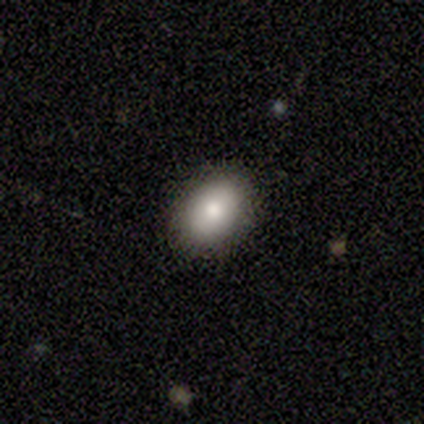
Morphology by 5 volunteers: smooth 100%, featured or disk 0%, star or artifact 0%. Down the decision tree: how rounded — in between (80%); merging — none (60%).